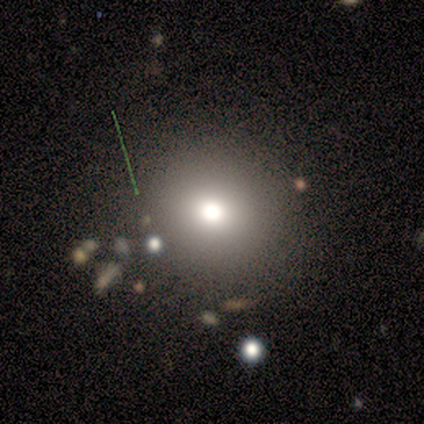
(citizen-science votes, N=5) smooth_or_featured: smooth (p=0.60) [alt: featured or disk p=0.20]
how_rounded: round (p=1.00)
merging: none (p=1.00)